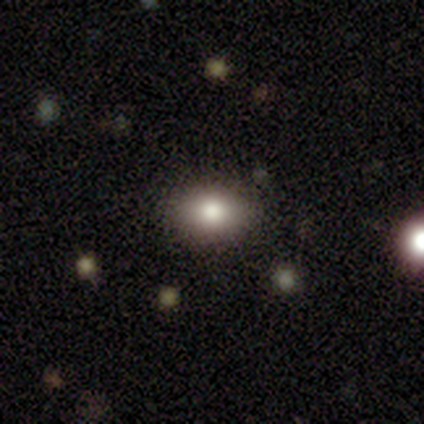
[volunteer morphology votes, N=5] Volunteers were most divided on "smooth or featured": smooth: 80%, star or artifact: 20%, featured or disk: 0%. More confident: how rounded — in between (100%); merging — none (100%).